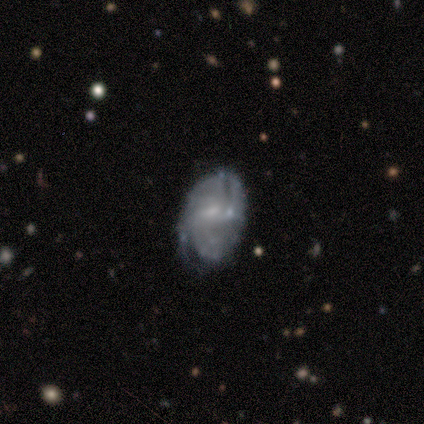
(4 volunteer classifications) A featured or disk galaxy (75%) with no bar (100%), no spiral arms (67%) and a small central bulge (67%).

Vote fractions:
- Smooth or featured? featured or disk: 75% / smooth: 25% / star or artifact: 0%
- Edge-on disk? no: 100% / yes: 0%
- Bar? no: 100% / strong: 0% / weak: 0%
- Spiral arms? no: 67% / yes: 33%
- Bulge size? small: 67% / none: 33% / dominant: 0% / large: 0% / moderate: 0%
- Merging? none: 75% / merger: 25% / minor disturbance: 0% / major disturbance: 0%